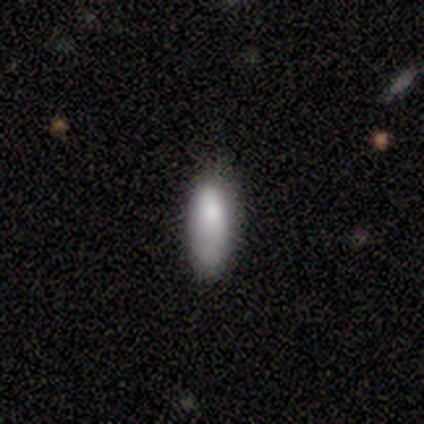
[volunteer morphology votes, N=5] Overall: smooth (100%). How rounded: cigar-shaped (80%). Merging: none (80%).